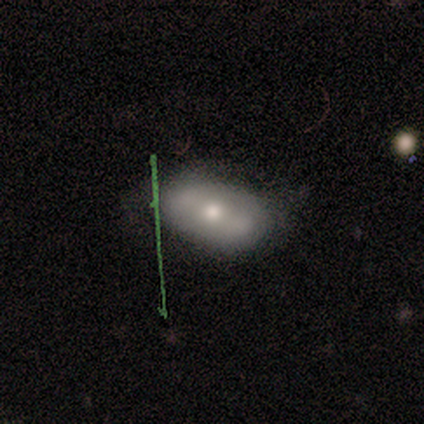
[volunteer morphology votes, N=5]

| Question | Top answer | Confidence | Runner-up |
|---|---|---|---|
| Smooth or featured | smooth | 40% | tied: featured or disk (40%) |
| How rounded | in between | 100% | — |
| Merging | none | 75% | minor disturbance (25%) |